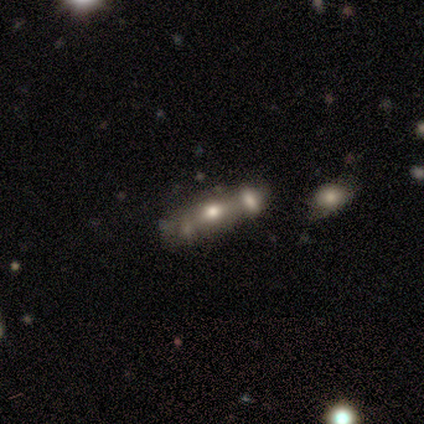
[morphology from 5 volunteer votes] This appears to be a smooth galaxy with no disk features (60%) that is in between round and cigar-shaped (67%). Merging: none (50%).